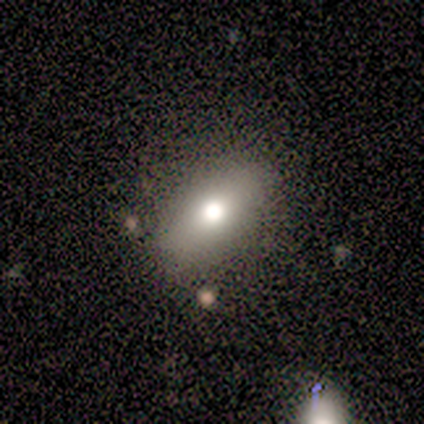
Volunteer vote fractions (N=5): smooth 80%, featured or disk 20%, star or artifact 0%. Down the decision tree: how rounded — in between (100%); merging — none (80%).